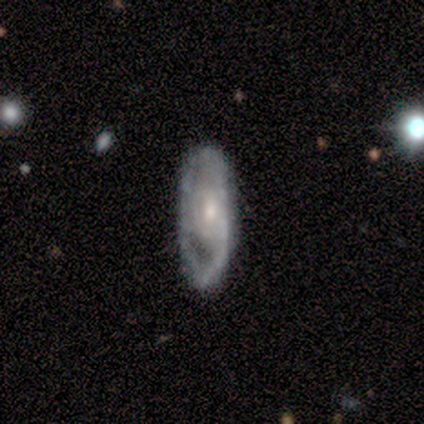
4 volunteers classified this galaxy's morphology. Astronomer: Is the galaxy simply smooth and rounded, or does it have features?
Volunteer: featured or disk — 100%.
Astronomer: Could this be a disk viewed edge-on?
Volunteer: no — 100%.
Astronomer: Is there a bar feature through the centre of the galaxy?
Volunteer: no — 75%.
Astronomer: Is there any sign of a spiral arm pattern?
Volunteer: no — 100%.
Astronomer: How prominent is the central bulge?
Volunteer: moderate — 75%.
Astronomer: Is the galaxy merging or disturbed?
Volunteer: none — 75%.